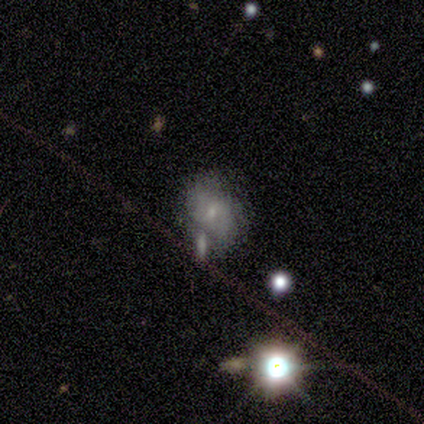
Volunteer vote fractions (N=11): Volunteers were most divided on "smooth or featured": smooth: 45%, featured or disk: 36%, star or artifact: 18%. Remaining: how rounded — in between (100%); merging — minor disturbance (44%).